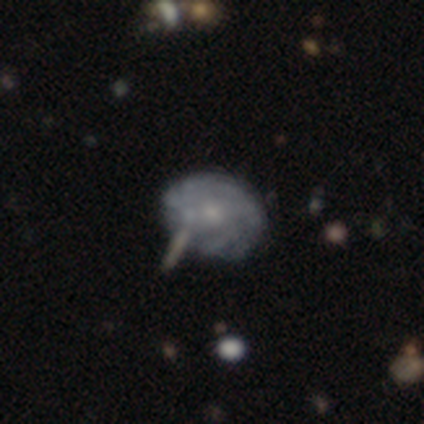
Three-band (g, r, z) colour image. It shows a featured or disk galaxy (100%) with no bar (80%), tight (50%, tied with medium) spiral arms (80%) and a small central bulge (60%). Merging: none (40%, tied with minor disturbance).